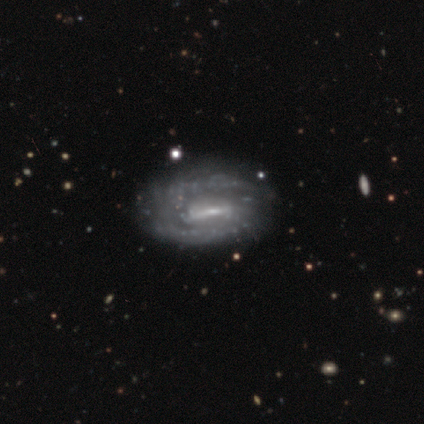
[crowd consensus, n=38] A featured or disk galaxy (87%) with a weak bar (47%), 2 (67%) medium (50%) spiral arms (75%) and a small central bulge (59%). Merging: none (47%).